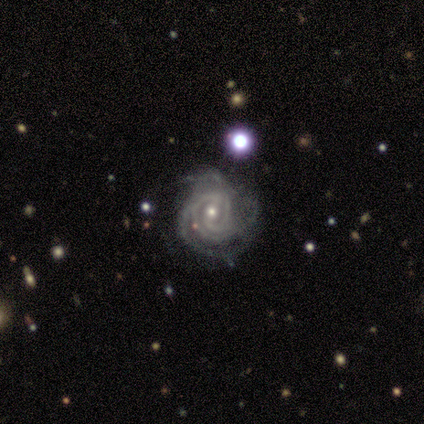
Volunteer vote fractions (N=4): featured or disk 75%, star or artifact 25%, smooth 0%. Down the decision tree: edge-on disk — no (100%); bar — weak (67%); spiral arms — yes (100%); spiral arm count — can't tell (67%); spiral winding — tight (100%); bulge size — small (100%); merging — minor disturbance (67%).